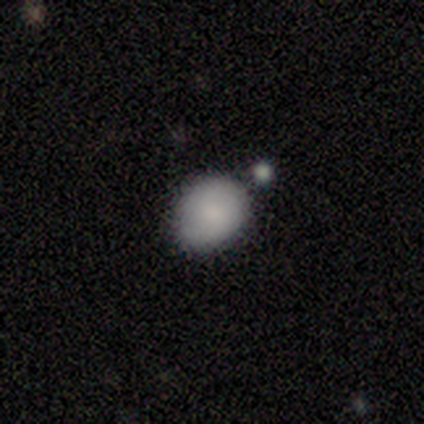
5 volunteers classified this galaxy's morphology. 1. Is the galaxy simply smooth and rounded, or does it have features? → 100% smooth, 0% featured or disk, 0% star or artifact.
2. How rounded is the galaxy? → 100% in between, 0% round, 0% cigar-shaped.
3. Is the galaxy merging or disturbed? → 80% none, 20% minor disturbance, 0% major disturbance, 0% merger.